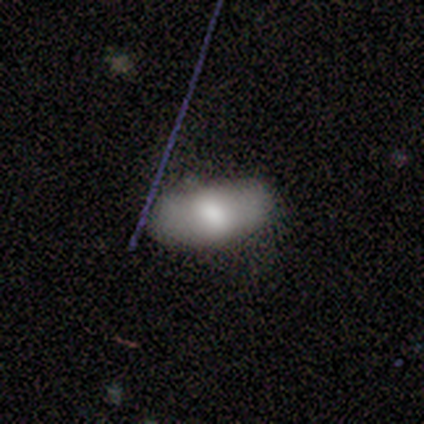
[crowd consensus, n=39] Smooth or featured: smooth — 59% (featured or disk — 28%)
How rounded: in between — 96% (cigar-shaped — 4%)
Merging: none — 65% (minor disturbance — 35%)